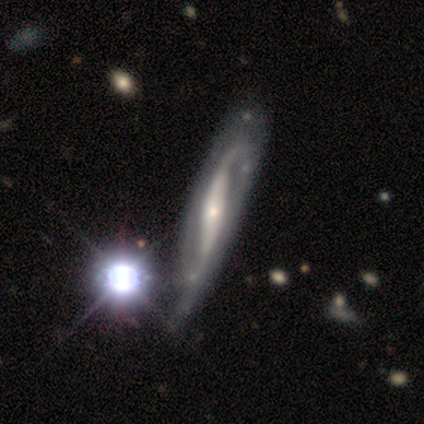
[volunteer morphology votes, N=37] Volunteers were most divided on "merging": minor disturbance: 25%, none: 19%, merger: 11%, major disturbance: 8%. More confident: spiral arms — yes (100%); spiral arm count — 2 (93%); smooth or featured — featured or disk (92%); edge-on disk — no (82%); spiral winding — loose (71%); bulge size — small (54%); bar — strong (50%).